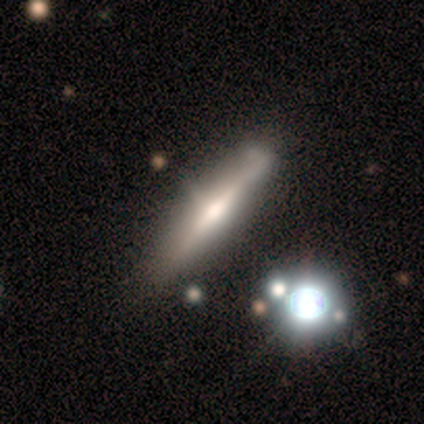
Overall: featured or disk (100%). Edge-on disk: yes (83%). Edge-on bulge: rounded (60%; boxy 20%). Merging: none (33%, tied with minor disturbance).